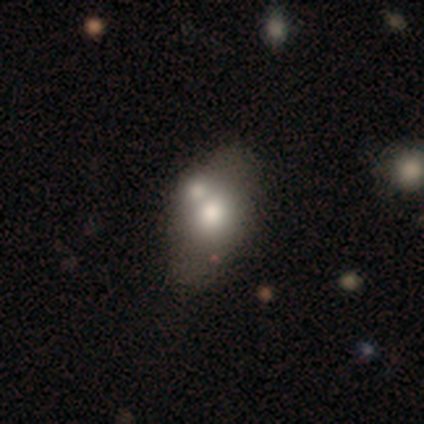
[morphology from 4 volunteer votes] Volunteers were most divided on "merging": none: 50%, minor disturbance: 25%, merger: 25%, major disturbance: 0%. More confident: smooth or featured — smooth (100%); how rounded — in between (100%).